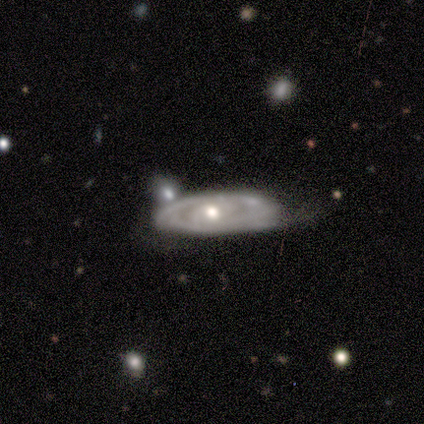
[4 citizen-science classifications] A featured or disk galaxy (100%) with no bar (67%), medium (67%) spiral arms (100%) and a moderate central bulge (67%).

Vote fractions:
- Smooth or featured? featured or disk: 100% / smooth: 0% / star or artifact: 0%
- Edge-on disk? no: 75% / yes: 25%
- Bar? no: 67% / weak: 33% / strong: 0%
- Spiral arms? yes: 100% / no: 0%
- Spiral winding? medium: 67% / tight: 33% / loose: 0%
- Spiral arm count? can't tell: 100% / 1: 0% / 2: 0% / 3: 0% / 4: 0% / more than 4: 0%
- Bulge size? moderate: 67% / small: 33% / dominant: 0% / large: 0% / none: 0%
- Merging? none: 75% / major disturbance: 25% / minor disturbance: 0% / merger: 0%